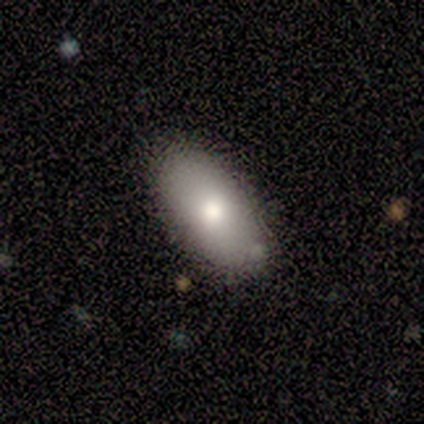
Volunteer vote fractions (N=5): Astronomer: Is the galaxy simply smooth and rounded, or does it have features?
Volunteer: smooth — 60% (runner-up: featured or disk, 40%).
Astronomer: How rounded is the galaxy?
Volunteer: in between — 100%.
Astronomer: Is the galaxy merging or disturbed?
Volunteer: none — 100%.